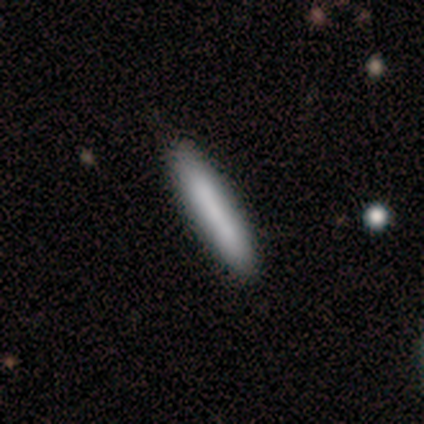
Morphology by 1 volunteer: A smooth galaxy with no disk features (100%) that is cigar-shaped (100%).

Vote fractions:
- Smooth or featured? smooth: 100% / featured or disk: 0% / star or artifact: 0%
- How rounded? cigar-shaped: 100% / round: 0% / in between: 0%
- Merging? minor disturbance: 100% / none: 0% / major disturbance: 0% / merger: 0%